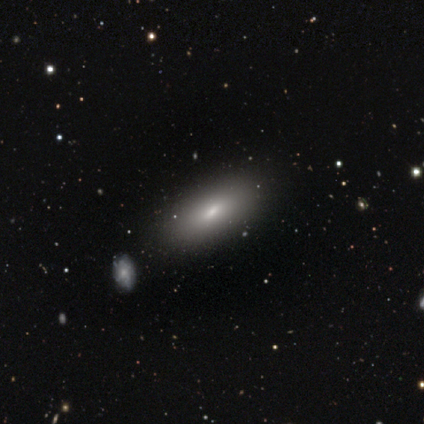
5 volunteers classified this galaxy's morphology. Overall: smooth (80%). How rounded: in between (50%, tied with cigar-shaped). Merging: none (60%; minor disturbance 20%).